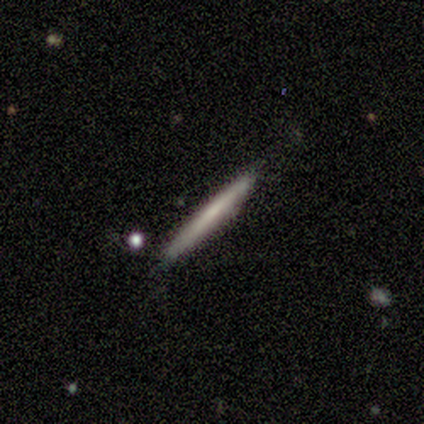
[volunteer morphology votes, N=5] Smooth or featured? 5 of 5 (100%) said smooth. How rounded? 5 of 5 (100%) said cigar-shaped. Merging? 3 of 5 (60%) said none.